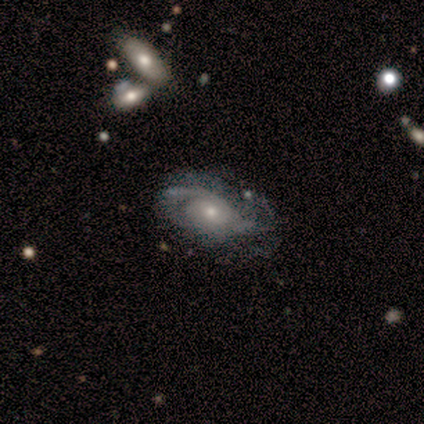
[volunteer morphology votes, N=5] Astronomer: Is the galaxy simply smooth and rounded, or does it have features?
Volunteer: featured or disk — 100%.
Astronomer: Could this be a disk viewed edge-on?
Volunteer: no — 100%.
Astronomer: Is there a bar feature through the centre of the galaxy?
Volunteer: no — 80%.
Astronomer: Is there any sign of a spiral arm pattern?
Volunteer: yes — 100%.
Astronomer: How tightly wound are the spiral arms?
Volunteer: tight — 40%, tied with medium at 40%.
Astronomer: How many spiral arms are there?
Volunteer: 2 — 60%.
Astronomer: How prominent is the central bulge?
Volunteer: small — 80%.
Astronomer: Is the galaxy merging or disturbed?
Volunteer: none — 80%.